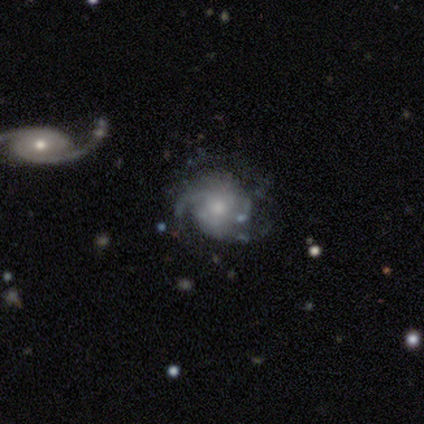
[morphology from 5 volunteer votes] smooth-or-featured: featured or disk: 80% | star or artifact: 20% | smooth: 0%
  disk-edge-on: no: 75% | yes: 25%
    bar: no: 67% | weak: 33% | strong: 0%
    has-spiral-arms: yes: 100% | no: 0%
      spiral-winding: medium: 100% | tight: 0% | loose: 0%
      spiral-arm-count: 2: 67% | 3: 33% | 1: 0% | 4: 0% | more than 4: 0% | can't tell: 0%
    bulge-size: small: 67% | moderate: 33% | dominant: 0% | large: 0% | none: 0%
  merging: none: 100% | minor disturbance: 0% | major disturbance: 0% | merger: 0%